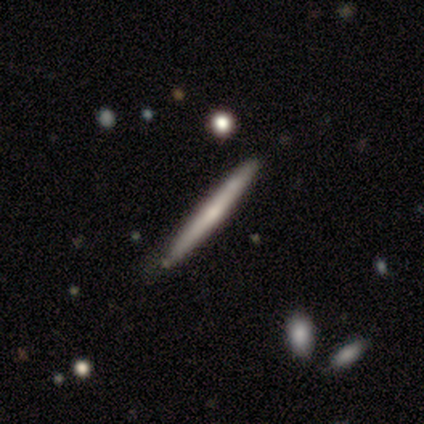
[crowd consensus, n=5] smooth_or_featured: smooth (p=0.80) [alt: featured or disk p=0.20]
how_rounded: cigar-shaped (p=1.00)
merging: none (p=0.80) [alt: minor disturbance p=0.20]